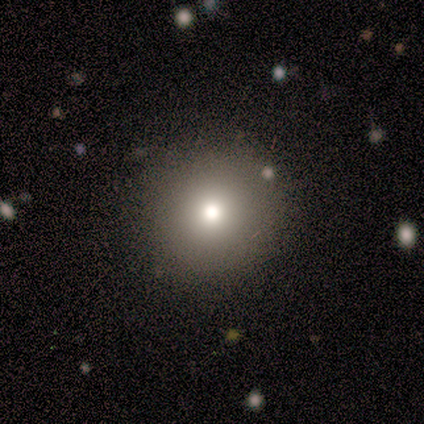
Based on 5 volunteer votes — Smooth or featured? 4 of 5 (80%) said smooth. How rounded? 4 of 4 (100%) said round. Merging? 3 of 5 (60%) said none.